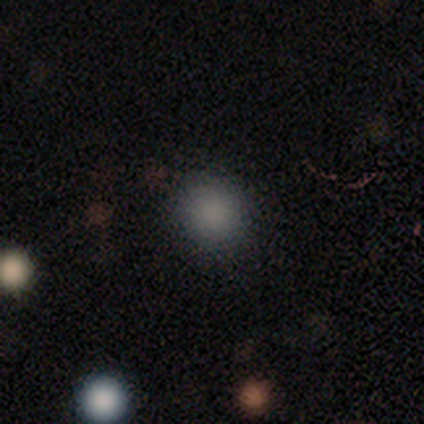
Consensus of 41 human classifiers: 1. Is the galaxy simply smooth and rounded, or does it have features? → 90% smooth, 10% star or artifact, 0% featured or disk.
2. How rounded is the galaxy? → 97% round, 3% in between, 0% cigar-shaped.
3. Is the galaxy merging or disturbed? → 92% none, 5% minor disturbance, 3% major disturbance, 0% merger.